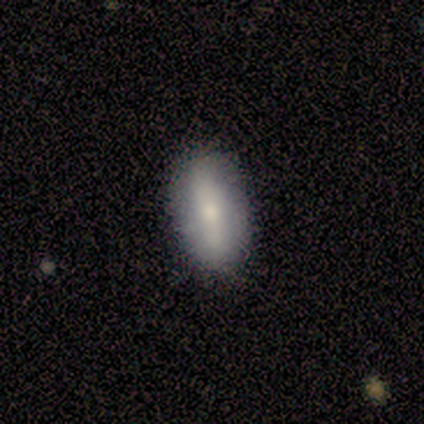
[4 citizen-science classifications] Smooth or featured?
  - smooth: 75% *
  - featured or disk: 25%
  - star or artifact: 0%
How rounded?
  - in between: 67% *
  - cigar-shaped: 33%
  - round: 0%
Merging?
  - none: 75% *
  - minor disturbance: 25%
  - major disturbance: 0%
  - merger: 0%